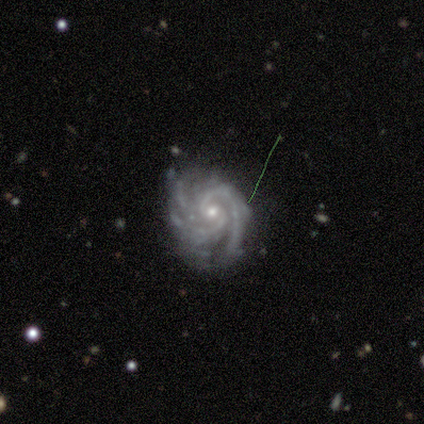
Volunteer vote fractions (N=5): smooth-or-featured: featured or disk: 80% | smooth: 20% | star or artifact: 0%
  disk-edge-on: no: 100% | yes: 0%
    bar: weak: 50% (tied) | no: 50% (tied) | strong: 0%
    has-spiral-arms: yes: 100% | no: 0%
      spiral-winding: tight: 50% (tied) | medium: 50% (tied) | loose: 0%
      spiral-arm-count: 2: 50% (tied) | can't tell: 50% (tied) | 1: 0% | 3: 0% | 4: 0% | more than 4: 0%
    bulge-size: moderate: 50% (tied) | small: 50% (tied) | dominant: 0% | large: 0% | none: 0%
  merging: none: 80% | minor disturbance: 20% | major disturbance: 0% | merger: 0%